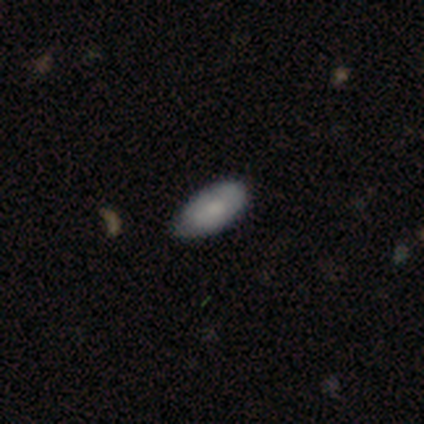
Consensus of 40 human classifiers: Smooth or featured? smooth (88%)
How rounded? in between (83%)
Merging? none (76%)